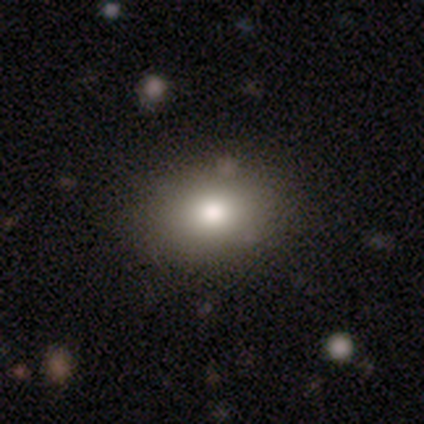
smooth-or-featured: smooth: 77% | featured or disk: 15% | star or artifact: 8%
  how-rounded: in between: 70% | round: 30% | cigar-shaped: 0%
  merging: none: 67% | minor disturbance: 11% | merger: 6% | major disturbance: 3%